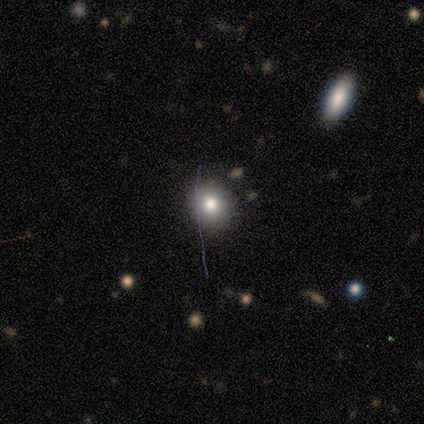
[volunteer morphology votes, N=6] This appears to be a smooth galaxy with no disk features (67%) that is round (100%). Merging: none (100%).